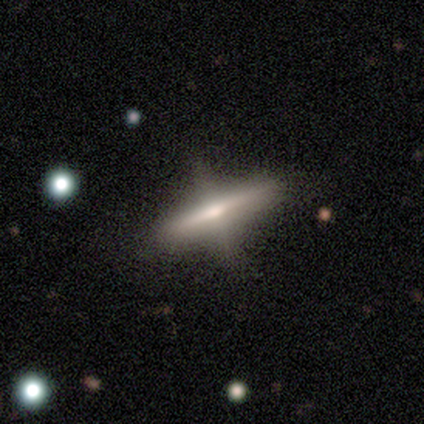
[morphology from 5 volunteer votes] Smooth or featured: featured or disk — 60% (smooth — 40%)
Edge-on disk: yes — 100%
Edge-on bulge: rounded — 67% (boxy — 33%)
Merging: none — 40% (tied with major disturbance — 40%)